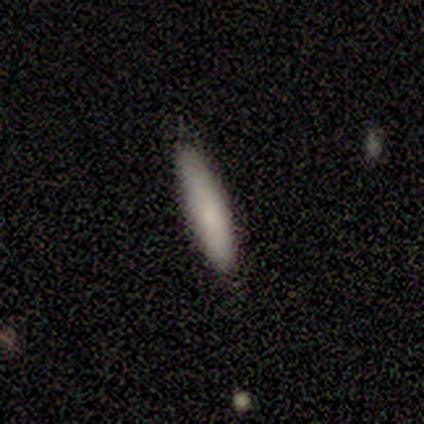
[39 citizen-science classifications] Volunteers were most divided on "merging": none: 90%, minor disturbance: 10%, major disturbance: 0%, merger: 0%. More confident: how rounded — cigar-shaped (97%); smooth or featured — smooth (95%).